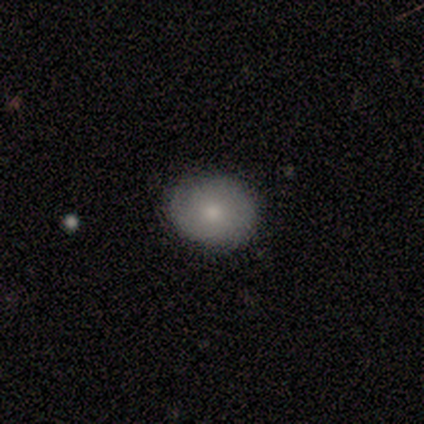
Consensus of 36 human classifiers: Morphology: type=smooth (58%); roundness=round (67%); merging=none (91%).